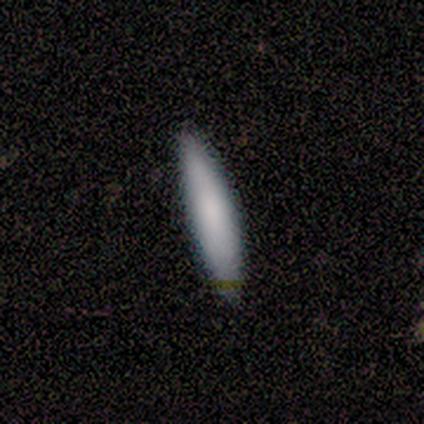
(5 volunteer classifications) smooth-or-featured: smooth: 80% | featured or disk: 20% | star or artifact: 0%
  how-rounded: cigar-shaped: 75% | in between: 25% | round: 0%
  merging: none: 80% | minor disturbance: 20% | major disturbance: 0% | merger: 0%